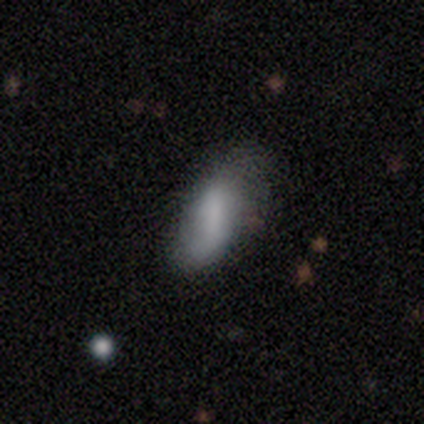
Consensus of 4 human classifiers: Smooth or featured: smooth — 75% (featured or disk — 25%)
How rounded: in between — 100%
Merging: none — 75% (minor disturbance — 25%)